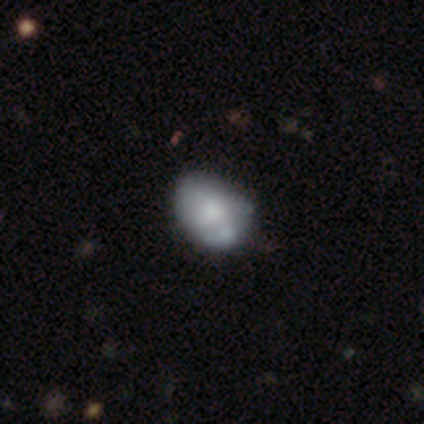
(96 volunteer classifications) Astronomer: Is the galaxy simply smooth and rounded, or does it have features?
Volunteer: smooth — 57% (runner-up: featured or disk, 36%).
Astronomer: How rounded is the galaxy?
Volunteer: in between — 82%.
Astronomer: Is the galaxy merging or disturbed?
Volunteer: minor disturbance — 40% (runner-up: none, 36%).